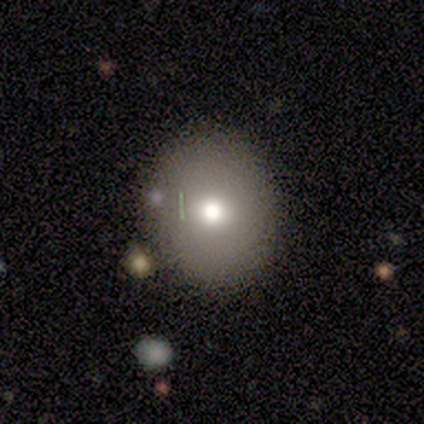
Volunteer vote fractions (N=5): smooth-or-featured: smooth: 40% (tied) | featured or disk: 40% (tied) | star or artifact: 20%
  how-rounded: round: 50% (tied) | in between: 50% (tied) | cigar-shaped: 0%
  merging: none: 100% | minor disturbance: 0% | major disturbance: 0% | merger: 0%